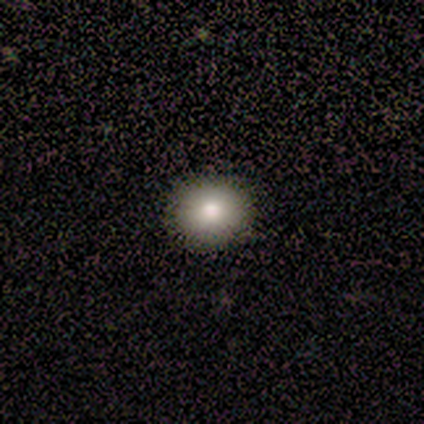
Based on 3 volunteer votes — Smooth or featured? 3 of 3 (100%) said smooth. How rounded? 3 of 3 (100%) said round. Merging? 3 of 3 (100%) said none.